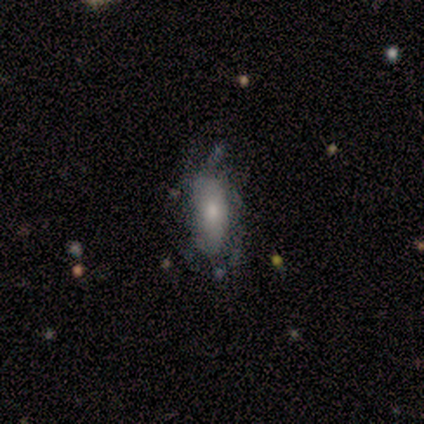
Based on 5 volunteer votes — smooth-or-featured: smooth: 60% | featured or disk: 40% | star or artifact: 0%
  how-rounded: in between: 67% | round: 33% | cigar-shaped: 0%
  merging: minor disturbance: 40% (tied) | major disturbance: 40% (tied) | none: 20% | merger: 0%